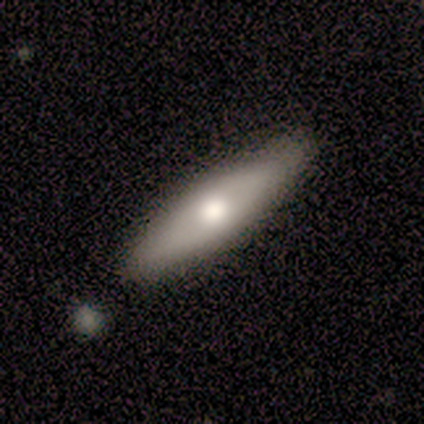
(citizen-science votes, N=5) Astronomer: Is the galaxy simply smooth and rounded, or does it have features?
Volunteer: smooth — 60%.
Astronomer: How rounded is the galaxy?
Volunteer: in between — 67%.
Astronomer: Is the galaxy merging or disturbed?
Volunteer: none — 75%.